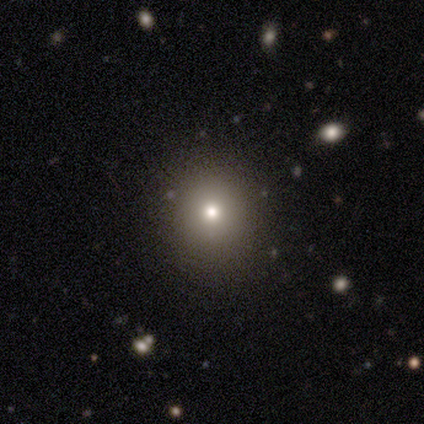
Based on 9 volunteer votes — Smooth or featured?
  - smooth: 78% *
  - star or artifact: 22%
  - featured or disk: 0%
How rounded?
  - round: 86% *
  - in between: 14%
  - cigar-shaped: 0%
Merging?
  - none: 86% *
  - major disturbance: 14%
  - minor disturbance: 0%
  - merger: 0%